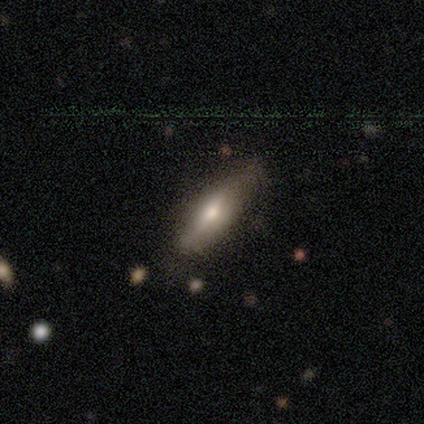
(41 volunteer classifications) Smooth or featured? smooth (66%)
How rounded? in between (56%)
Merging? none (52%)